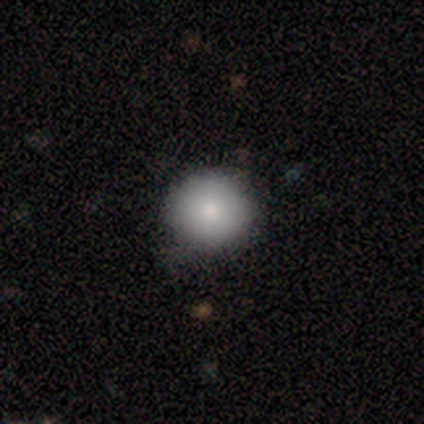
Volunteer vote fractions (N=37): A smooth galaxy with no disk features (84%) that is round (94%).

Vote fractions:
- Smooth or featured? smooth: 84% / featured or disk: 11% / star or artifact: 5%
- How rounded? round: 94% / in between: 6% / cigar-shaped: 0%
- Merging? none: 66% / minor disturbance: 29% / major disturbance: 6% / merger: 0%